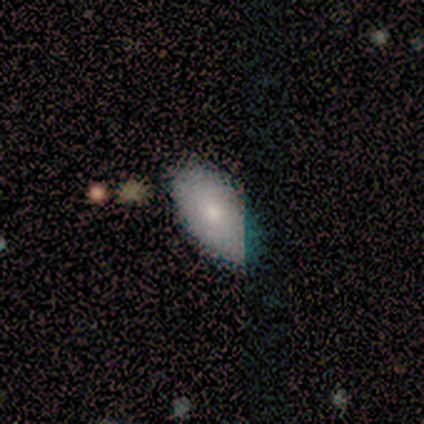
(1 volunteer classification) This appears to be a smooth galaxy with no disk features (100%) that is in between round and cigar-shaped (100%). Merging: none (100%).